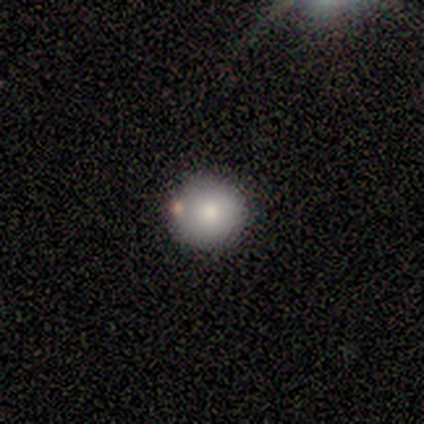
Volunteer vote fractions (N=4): Morphology: type=smooth (50%, tied with featured or disk); roundness=round (100%); merging=none (50%, tied with minor disturbance).